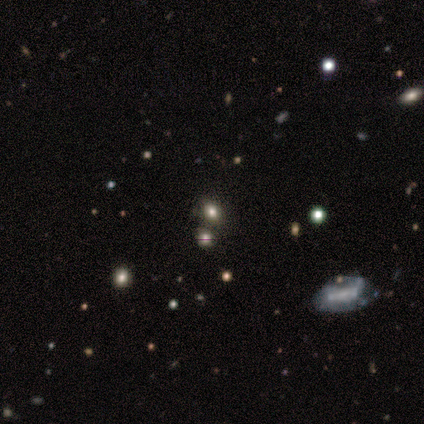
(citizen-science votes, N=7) A smooth galaxy with no disk features (57%) that is in between round and cigar-shaped (75%). Merging: none (60%).